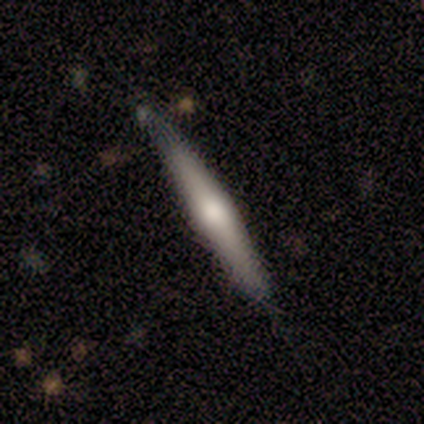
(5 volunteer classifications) smooth-or-featured: featured or disk: 60% | smooth: 40% | star or artifact: 0%
  disk-edge-on: yes: 100% | no: 0%
    edge-on-bulge: rounded: 100% | boxy: 0% | none: 0%
  merging: none: 80% | minor disturbance: 20% | major disturbance: 0% | merger: 0%